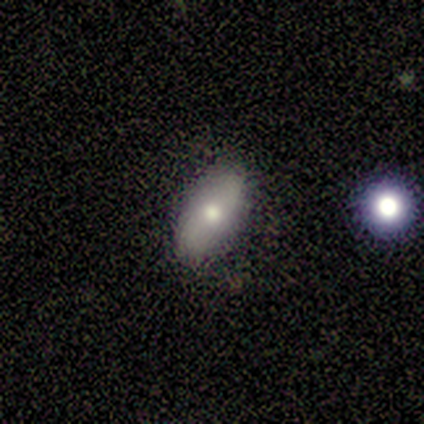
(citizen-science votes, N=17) This is possibly a smooth galaxy (59%). How rounded: clearly in between (80%). Merging: clearly none (87%).